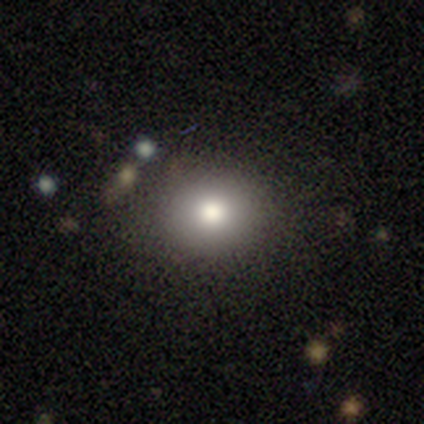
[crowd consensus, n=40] Q: Smooth or featured?
A: smooth (78%); runner-up: featured or disk (12%)
Q: How rounded?
A: round (81%); runner-up: in between (16%)
Q: Merging?
A: none (86%); runner-up: major disturbance (6%)